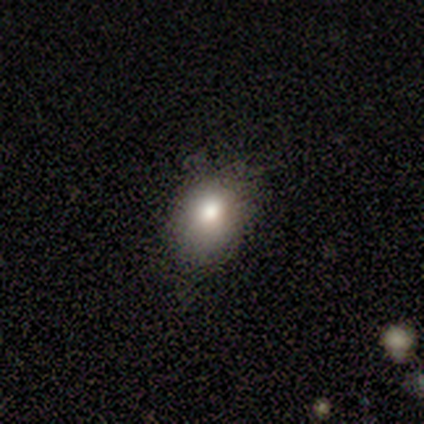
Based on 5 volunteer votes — Smooth or featured: smooth — 80% (star or artifact — 20%)
How rounded: in between — 100%
Merging: none — 50% (tied with minor disturbance — 50%)